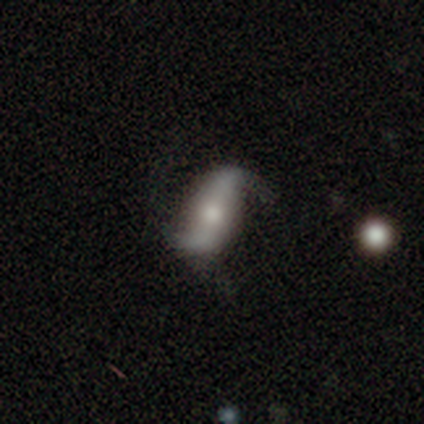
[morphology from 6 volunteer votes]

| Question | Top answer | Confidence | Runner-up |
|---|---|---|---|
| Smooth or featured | featured or disk | 83% | smooth (17%) |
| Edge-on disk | no | 100% | — |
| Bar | weak | 60% | no (40%) |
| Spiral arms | yes | 100% | — |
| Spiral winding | loose | 100% | — |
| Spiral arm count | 2 | 100% | — |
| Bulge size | moderate | 80% | small (20%) |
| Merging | none | 67% | minor disturbance (17%) |